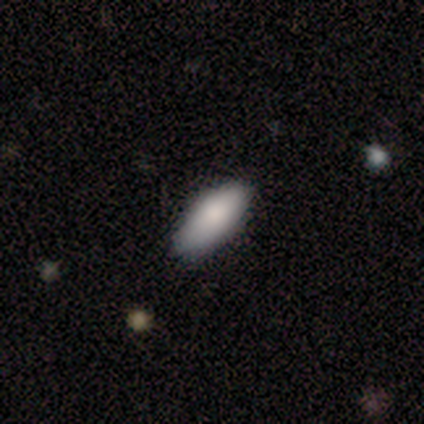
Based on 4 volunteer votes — smooth-or-featured: smooth: 100% | featured or disk: 0% | star or artifact: 0%
  how-rounded: in between: 75% | cigar-shaped: 25% | round: 0%
  merging: none: 75% | minor disturbance: 25% | major disturbance: 0% | merger: 0%